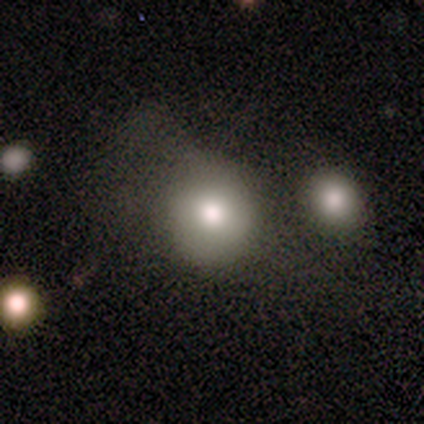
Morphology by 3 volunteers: Q: Smooth or featured?
A: smooth (100%)
Q: How rounded?
A: round (100%)
Q: Merging?
A: minor disturbance (67%); runner-up: major disturbance (33%)